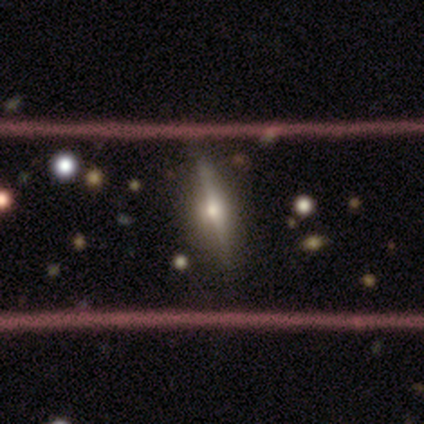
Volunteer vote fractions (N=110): This appears to be a featured or disk galaxy (75%) viewed edge-on (95%) with a rounded central bulge (95%). Merging: none (85%).